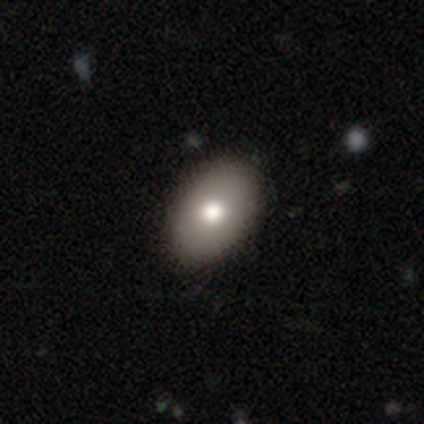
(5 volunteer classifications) smooth-or-featured: smooth: 80% | featured or disk: 20% | star or artifact: 0%
  how-rounded: in between: 100% | round: 0% | cigar-shaped: 0%
  merging: none: 100% | minor disturbance: 0% | major disturbance: 0% | merger: 0%